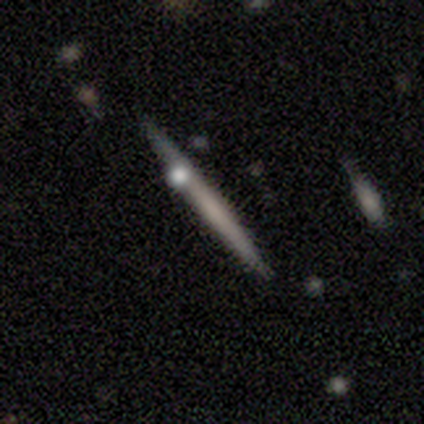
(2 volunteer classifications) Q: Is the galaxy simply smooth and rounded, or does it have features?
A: smooth — 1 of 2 (50%, tied with featured or disk).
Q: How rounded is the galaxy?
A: cigar-shaped — 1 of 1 (100%).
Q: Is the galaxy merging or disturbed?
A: none — 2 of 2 (100%).